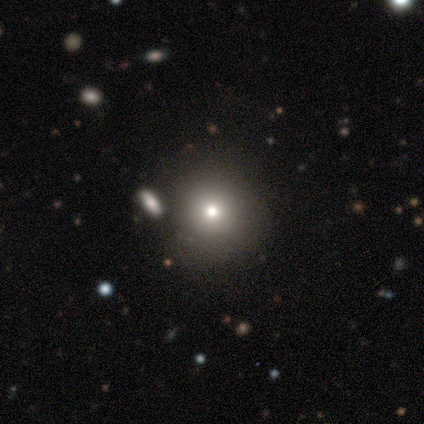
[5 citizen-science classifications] Volunteers were most divided on "smooth or featured": smooth: 60%, star or artifact: 40%, featured or disk: 0%. More confident: how rounded — round (100%); merging — none (67%).